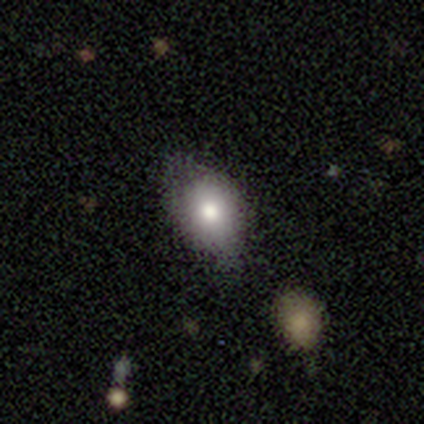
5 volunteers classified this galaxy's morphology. smooth_or_featured: smooth (p=0.80) [alt: featured or disk p=0.20]
how_rounded: in between (p=0.75) [alt: cigar-shaped p=0.25]
merging: minor disturbance (p=0.60) [alt: none p=0.40]